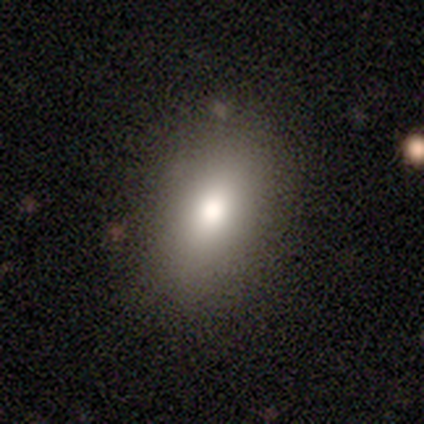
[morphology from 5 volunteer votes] smooth-or-featured: smooth: 100% | featured or disk: 0% | star or artifact: 0%
  how-rounded: in between: 80% | round: 20% | cigar-shaped: 0%
  merging: none: 80% | minor disturbance: 20% | major disturbance: 0% | merger: 0%